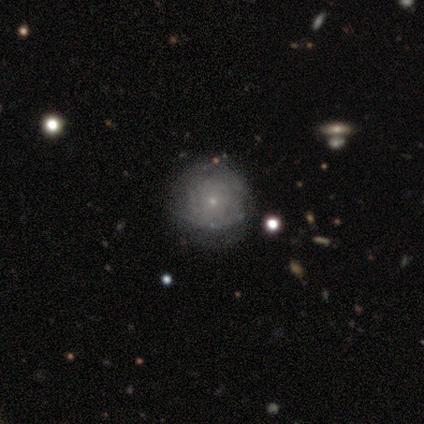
smooth 80%, featured or disk 20%, star or artifact 0%. Down the decision tree: how rounded — round (100%); merging — none (80%).